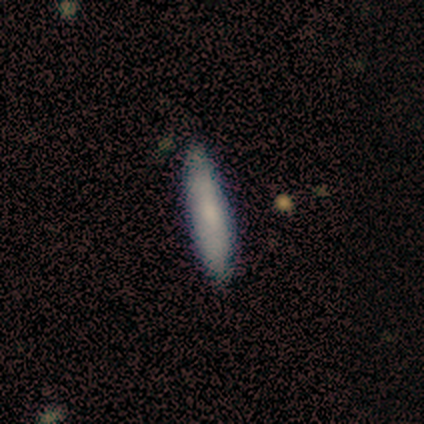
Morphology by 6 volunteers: A smooth galaxy with no disk features (83%) that is cigar-shaped (80%).

Vote fractions:
- Smooth or featured? smooth: 83% / featured or disk: 17% / star or artifact: 0%
- How rounded? cigar-shaped: 80% / in between: 20% / round: 0%
- Merging? none: 83% / minor disturbance: 17% / major disturbance: 0% / merger: 0%